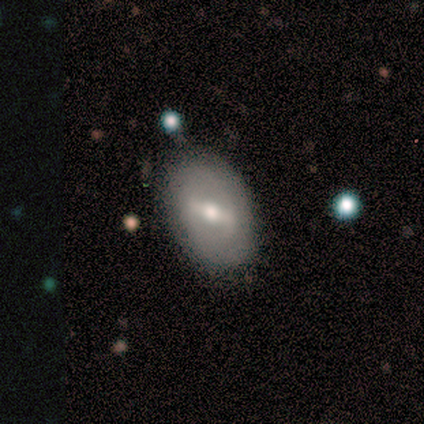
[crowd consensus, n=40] featured or disk 57%, smooth 38%, star or artifact 5%. Down the decision tree: edge-on disk — no (96%); bar — strong (59%); spiral arms — no (77%); bulge size — moderate (91%); merging — none (87%).